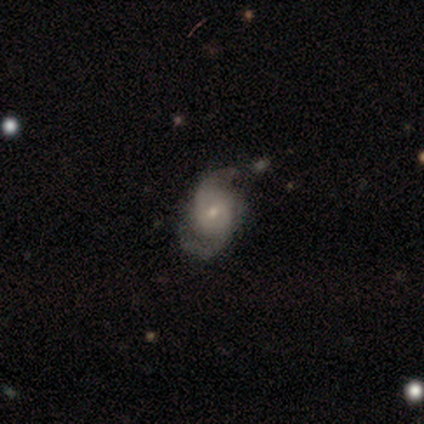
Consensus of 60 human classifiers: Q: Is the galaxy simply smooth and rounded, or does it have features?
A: featured or disk — 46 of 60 (77%).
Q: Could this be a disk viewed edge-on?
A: no — 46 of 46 (100%).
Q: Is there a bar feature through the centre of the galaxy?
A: no — 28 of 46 (61%).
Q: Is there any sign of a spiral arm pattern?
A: yes — 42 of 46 (91%).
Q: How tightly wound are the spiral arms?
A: medium — 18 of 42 (43%).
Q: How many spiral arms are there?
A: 2 — 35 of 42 (83%).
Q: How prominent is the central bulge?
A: small — 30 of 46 (65%).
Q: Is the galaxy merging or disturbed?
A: none — 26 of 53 (49%).